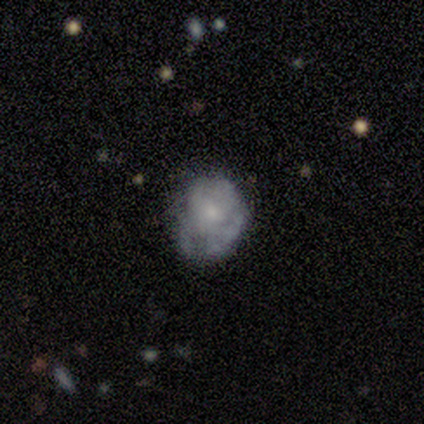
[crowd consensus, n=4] Smooth or featured: featured or disk — 100%
Edge-on disk: no — 75% (yes — 25%)
Bar: no — 100%
Spiral arms: no — 67% (yes — 33%)
Bulge size: small — 67% (none — 33%)
Merging: none — 75% (major disturbance — 25%)